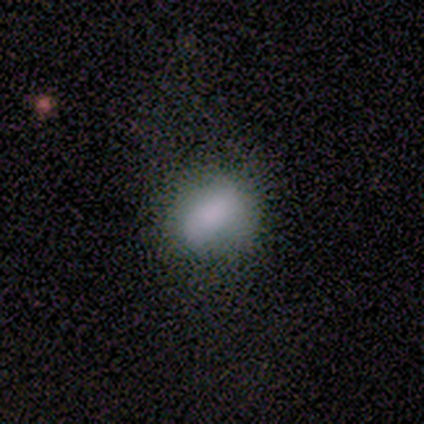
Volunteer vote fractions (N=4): smooth 100%, featured or disk 0%, star or artifact 0%. Down the decision tree: how rounded — in between (100%); merging — none (75%).